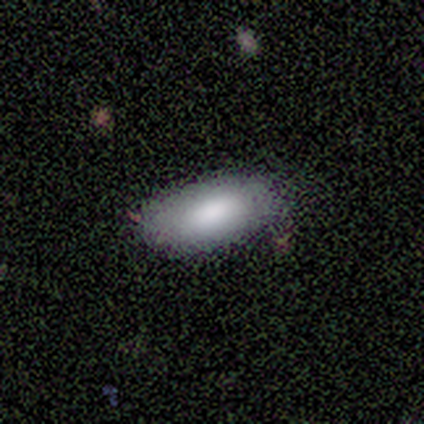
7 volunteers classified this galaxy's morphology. Overall: smooth (71%). How rounded: in between (80%). Merging: none (100%).